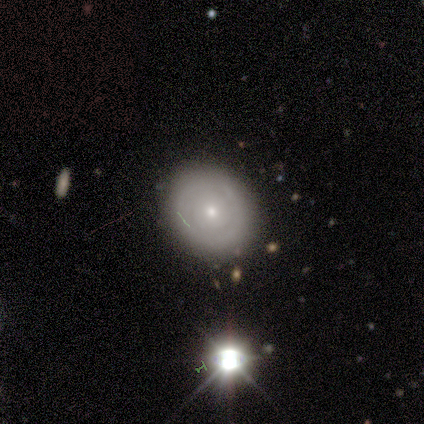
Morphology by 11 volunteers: A featured or disk galaxy (55%) with no bar (100%), no spiral arms (83%) and a moderate central bulge (50%, tied with small). Merging: none (100%).